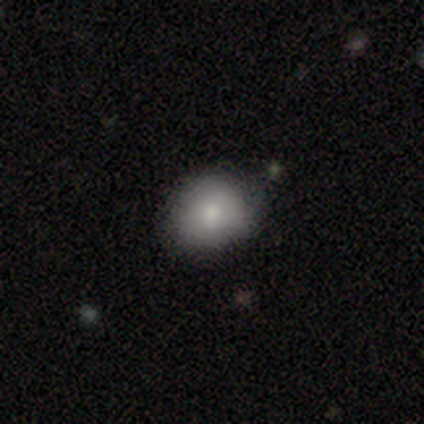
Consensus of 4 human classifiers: Smooth or featured?
  - smooth: 75% *
  - star or artifact: 25%
  - featured or disk: 0%
How rounded?
  - round: 100% *
  - in between: 0%
  - cigar-shaped: 0%
Merging?
  - none: 67% *
  - minor disturbance: 33%
  - major disturbance: 0%
  - merger: 0%